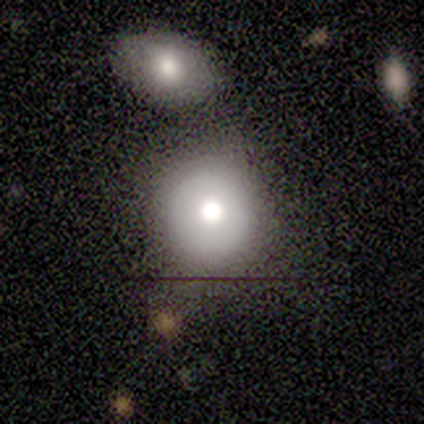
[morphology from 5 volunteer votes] This is likely a star or artifact rather than a galaxy (60%).